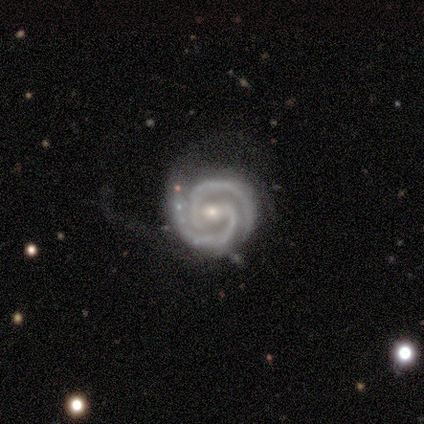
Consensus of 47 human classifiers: This is clearly a featured or disk galaxy (94%). It is clearly not viewed edge-on (100%). Bar: marginally weak (39%). Spiral arm pattern: clearly yes (100%). Spiral arm count: clearly 2 (91%). Spiral winding: likely tight (77%). Central bulge: possibly moderate (52%). Merging: possibly none (54%).